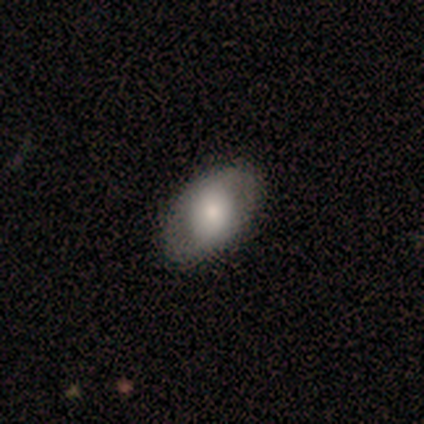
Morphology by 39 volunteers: A smooth galaxy with no disk features (49%) that is in between round and cigar-shaped (95%).

Vote fractions:
- Smooth or featured? smooth: 49% / featured or disk: 44% / star or artifact: 8%
- How rounded? in between: 95% / round: 5% / cigar-shaped: 0%
- Merging? none: 83% / minor disturbance: 8% / major disturbance: 6% / merger: 3%